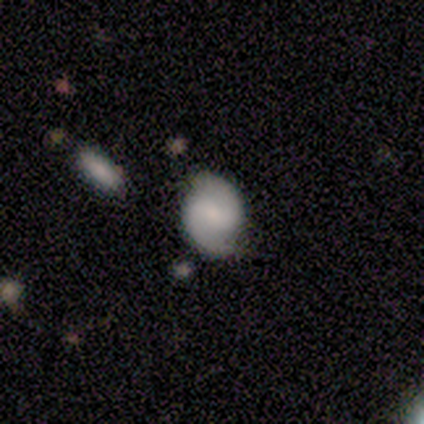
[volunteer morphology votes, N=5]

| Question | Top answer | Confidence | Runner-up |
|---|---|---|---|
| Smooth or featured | smooth | 60% | featured or disk (40%) |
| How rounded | in between | 67% | cigar-shaped (33%) |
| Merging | none | 60% | minor disturbance (40%) |